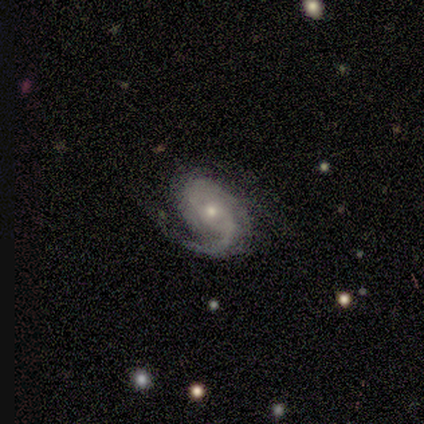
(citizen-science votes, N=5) This appears to be a featured or disk galaxy (80%) with no bar (100%), 2 (50%, tied with can't tell) tight (75%) spiral arms (100%) and a small central bulge (100%). Merging: minor disturbance (60%).